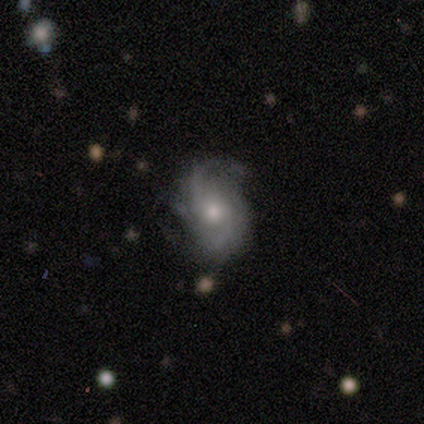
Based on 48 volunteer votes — Morphology: type=featured or disk (69%); edge-on=no (94%); bar=no (94%); spiral arms=yes (90%); winding=tight (43%); arm count=2 (43%); bulge=moderate (81%); merging=none (65%).